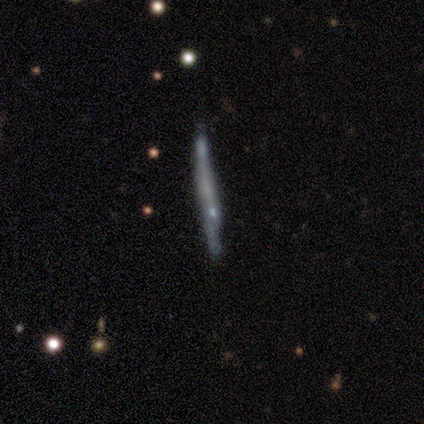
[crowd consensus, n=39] This is possibly a smooth galaxy (46%). How rounded: clearly cigar-shaped (89%). Merging: likely none (77%).